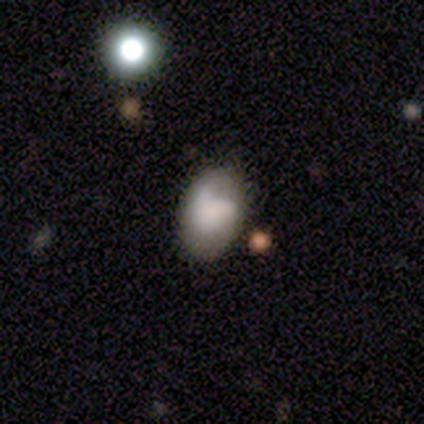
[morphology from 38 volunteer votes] Q: Smooth or featured?
A: smooth (63%); runner-up: featured or disk (37%)
Q: How rounded?
A: in between (71%); runner-up: round (29%)
Q: Merging?
A: none (42%); runner-up: merger (21%)